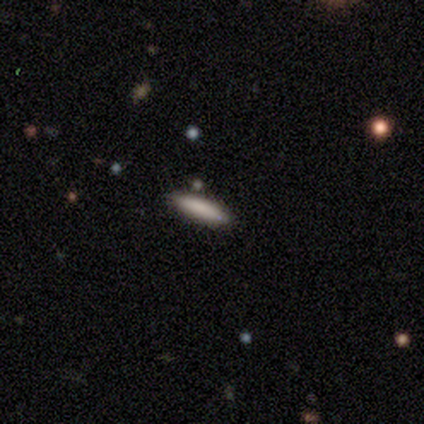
This is clearly a smooth galaxy (100%). How rounded: clearly cigar-shaped (100%). Merging: clearly none (100%).